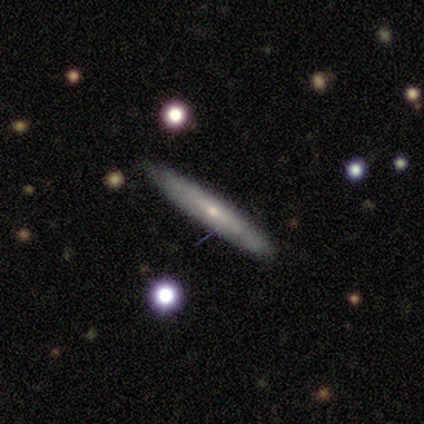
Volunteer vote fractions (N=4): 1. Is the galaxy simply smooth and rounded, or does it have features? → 75% featured or disk, 25% smooth, 0% star or artifact.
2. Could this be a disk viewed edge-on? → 100% yes, 0% no.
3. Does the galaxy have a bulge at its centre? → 100% rounded, 0% boxy, 0% none.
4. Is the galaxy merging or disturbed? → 100% none, 0% minor disturbance, 0% major disturbance, 0% merger.